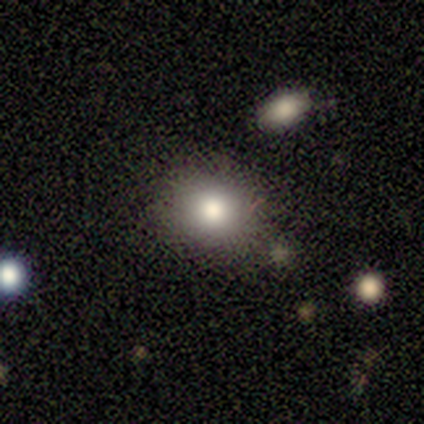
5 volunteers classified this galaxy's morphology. Overall: smooth (80%). How rounded: round (100%). Merging: none (100%).